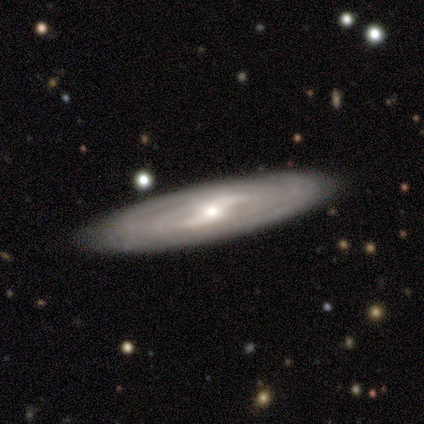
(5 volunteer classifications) smooth-or-featured: featured or disk: 80% | smooth: 20% | star or artifact: 0%
  disk-edge-on: yes: 50% (tied) | no: 50% (tied)
    edge-on-bulge: none: 100% | boxy: 0% | rounded: 0%
  merging: none: 100% | minor disturbance: 0% | major disturbance: 0% | merger: 0%